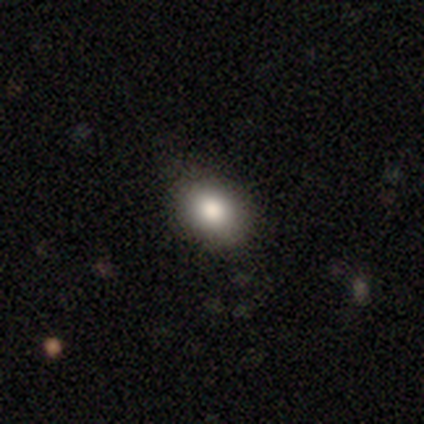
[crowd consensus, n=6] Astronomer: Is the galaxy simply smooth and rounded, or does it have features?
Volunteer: smooth — 100%.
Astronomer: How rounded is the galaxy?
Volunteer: in between — 83%.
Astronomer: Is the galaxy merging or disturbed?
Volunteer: none — 67%.